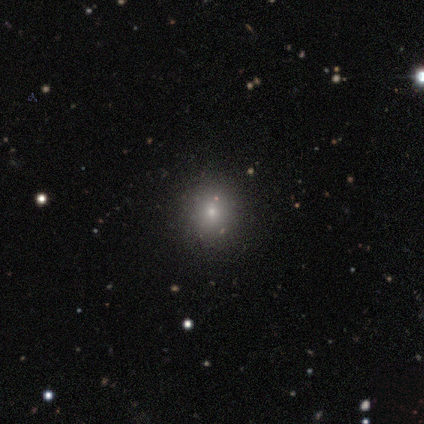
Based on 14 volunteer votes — Smooth or featured?
  - smooth: 64% *
  - star or artifact: 29%
  - featured or disk: 7%
How rounded?
  - round: 100% *
  - in between: 0%
  - cigar-shaped: 0%
Merging?
  - none: 90% *
  - minor disturbance: 10%
  - major disturbance: 0%
  - merger: 0%